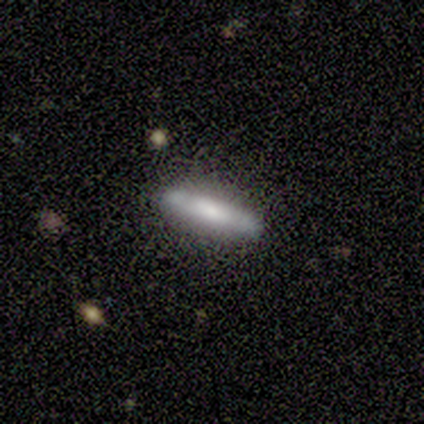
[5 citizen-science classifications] Overall: featured or disk (80%). Edge-on disk: yes (50%, tied with no). Edge-on bulge: none (100%). Merging: none (100%).